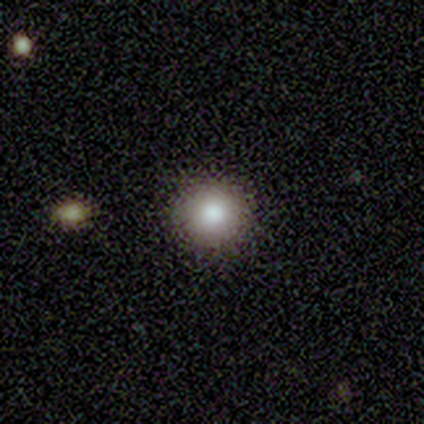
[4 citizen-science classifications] Morphology: type=smooth (100%); roundness=round (100%); merging=none (75%).